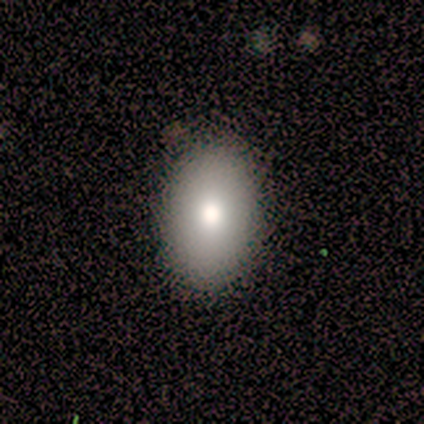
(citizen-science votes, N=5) This appears to be a smooth galaxy with no disk features (100%) that is in between round and cigar-shaped (80%). Merging: none (100%).